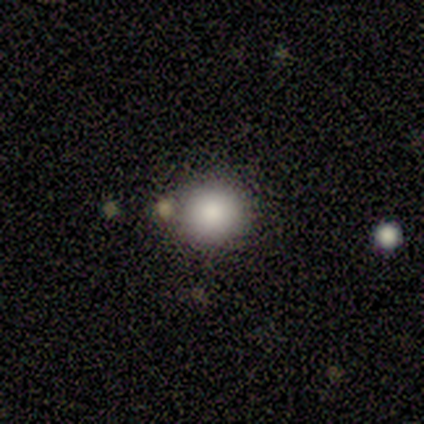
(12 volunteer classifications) Morphology: type=smooth (75%); roundness=round (100%); merging=none (80%).